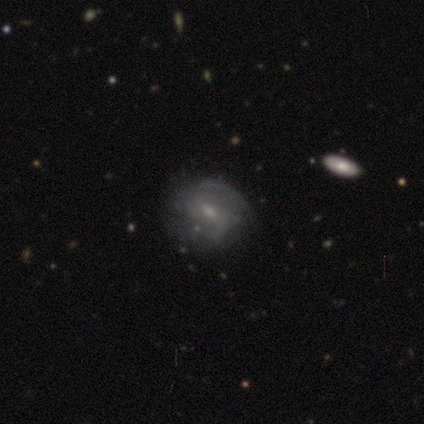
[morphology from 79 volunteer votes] Volunteers were most divided on "spiral arm count": 2: 56%, can't tell: 35%, 1: 5%, 3: 5%, 4: 0%, more than 4: 0%. Remaining: edge-on disk — no (100%); spiral arms — yes (86%); bulge size — small (64%); smooth or featured — featured or disk (63%); bar — weak (60%); spiral winding — medium (51%); merging — none (37%).